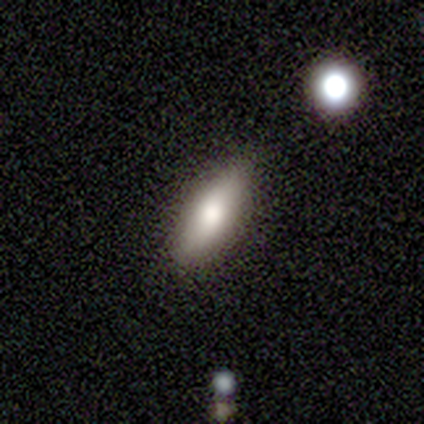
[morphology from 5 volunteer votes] Overall: featured or disk (60%; smooth 40%). Edge-on disk: no (67%; yes 33%). Bar: no (100%). Spiral arms: no (100%). Bulge size: moderate (100%). Merging: none (80%).